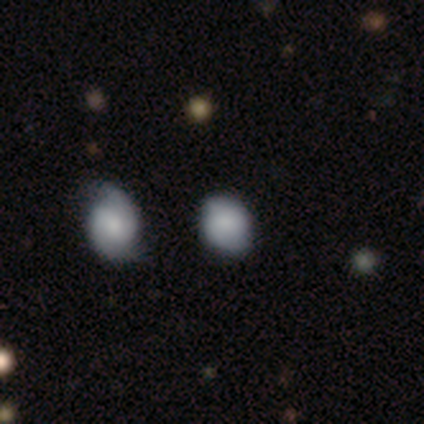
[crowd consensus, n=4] Smooth or featured? smooth (75%)
How rounded? round (67%)
Merging? none (50%, tied with minor disturbance)